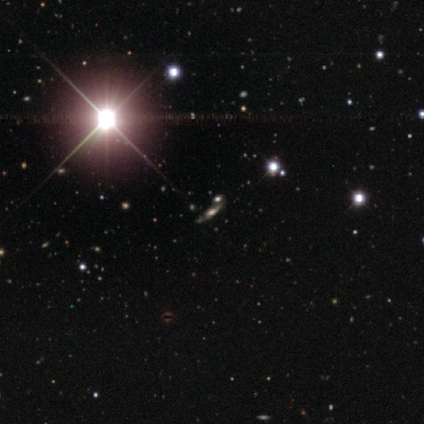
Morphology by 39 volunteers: A star or artifact, not a galaxy (74%).

Vote fractions:
- Smooth or featured? star or artifact: 74% / smooth: 13% / featured or disk: 13%